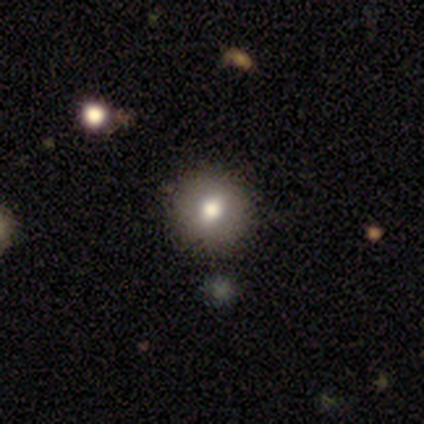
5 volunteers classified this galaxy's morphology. Smooth or featured? 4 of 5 (80%) said smooth. How rounded? 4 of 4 (100%) said round. Merging? 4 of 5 (80%) said none.